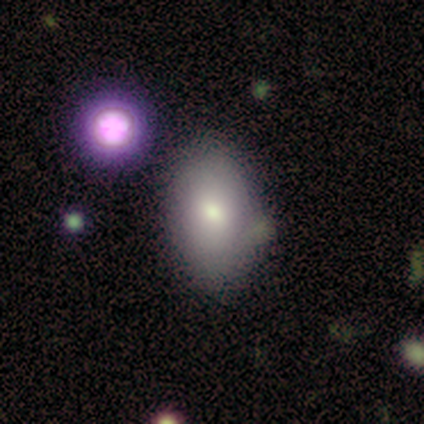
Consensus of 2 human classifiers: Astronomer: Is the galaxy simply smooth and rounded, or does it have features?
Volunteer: smooth — 50%, tied with featured or disk at 50%.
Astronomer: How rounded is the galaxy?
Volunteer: in between — 100%.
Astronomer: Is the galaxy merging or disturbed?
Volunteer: none — 50%, tied with merger at 50%.